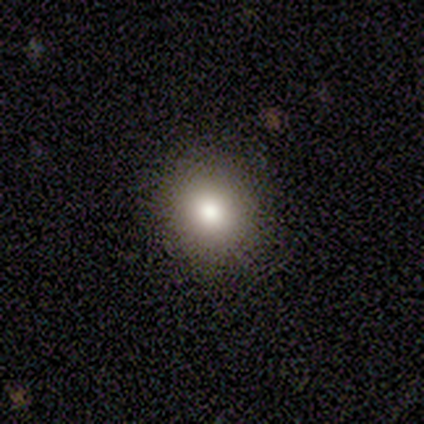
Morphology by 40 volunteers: This is likely a smooth galaxy (78%). How rounded: likely round (61%). Merging: clearly none (88%).